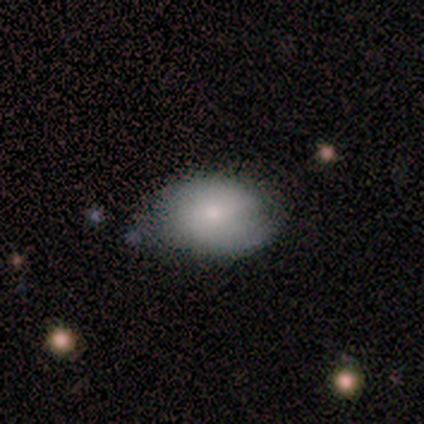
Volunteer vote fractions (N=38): Volunteers were most divided on "smooth or featured": smooth: 58%, featured or disk: 34%, star or artifact: 8%. More confident: how rounded — in between (77%); merging — none (69%).